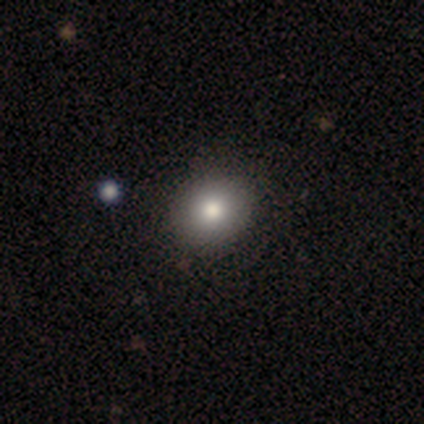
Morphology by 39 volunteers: A smooth galaxy with no disk features (79%) that is round (68%). Merging: none (94%).